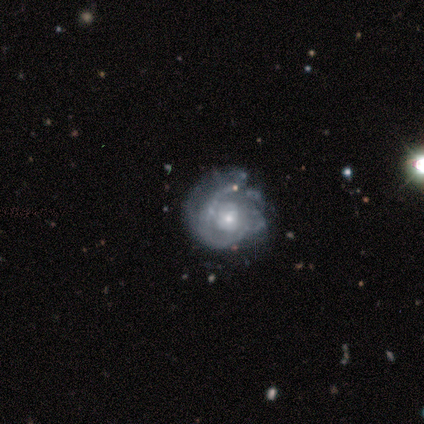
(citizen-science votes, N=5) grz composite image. It shows a featured or disk galaxy (100%) with no bar (80%), 1 (40%) medium (60%) spiral arms (100%) and a small central bulge (80%). Merging: none (80%).